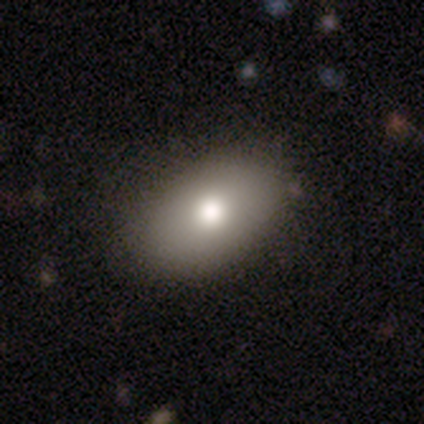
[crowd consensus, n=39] Q: Smooth or featured?
A: smooth (72%); runner-up: featured or disk (21%)
Q: How rounded?
A: in between (86%); runner-up: round (14%)
Q: Merging?
A: none (81%); runner-up: minor disturbance (6%)